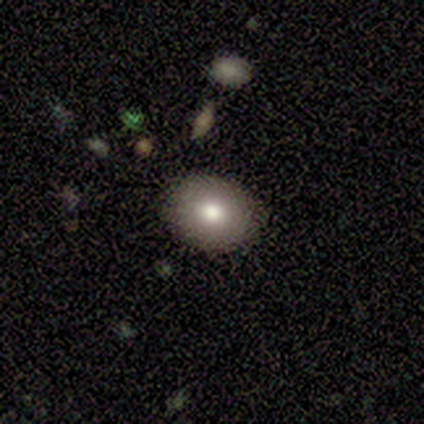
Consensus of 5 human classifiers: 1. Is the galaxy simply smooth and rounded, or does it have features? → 60% smooth, 20% featured or disk, 20% star or artifact.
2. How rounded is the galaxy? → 67% in between, 33% round, 0% cigar-shaped.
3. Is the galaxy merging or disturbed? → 100% none, 0% minor disturbance, 0% major disturbance, 0% merger.